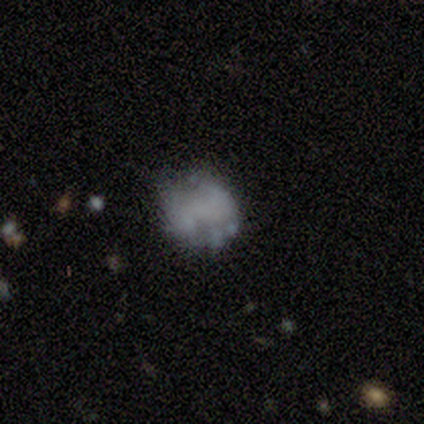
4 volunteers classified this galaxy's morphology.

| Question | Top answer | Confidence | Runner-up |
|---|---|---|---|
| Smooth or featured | smooth | 50% | tied: featured or disk (50%) |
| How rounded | round | 100% | — |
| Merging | none | 75% | minor disturbance (25%) |